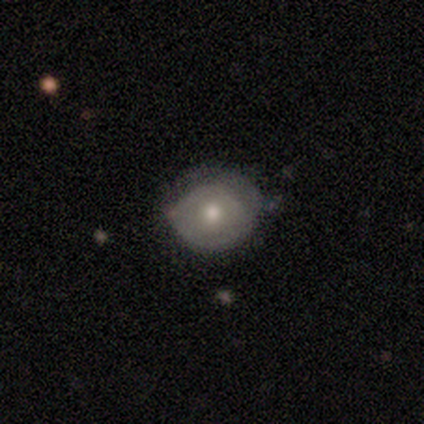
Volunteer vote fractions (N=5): Overall: featured or disk (80%). Edge-on disk: no (100%). Bar: no (100%). Spiral arms: no (75%). Bulge size: moderate (100%). Merging: none (40%, tied with minor disturbance).